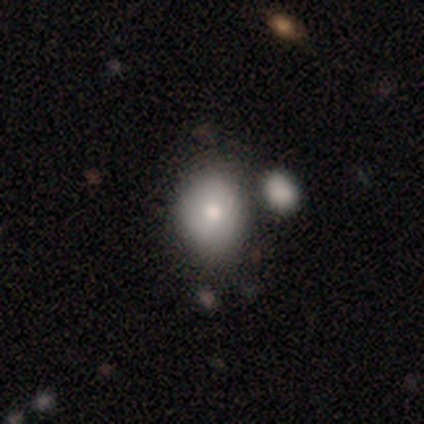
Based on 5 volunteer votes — A featured or disk galaxy (60%) with no bar (100%), tight (50%, tied with loose) spiral arms (67%) and a moderate central bulge (67%). Merging: none (40%, tied with merger).